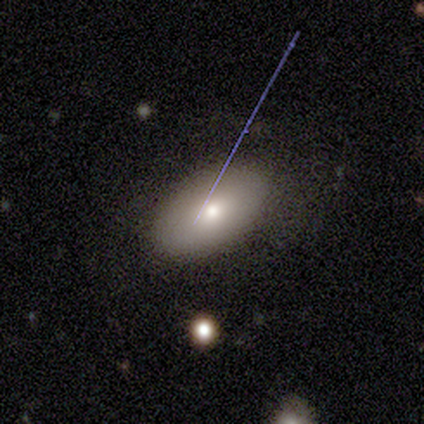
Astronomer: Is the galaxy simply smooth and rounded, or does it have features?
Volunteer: smooth — 57%.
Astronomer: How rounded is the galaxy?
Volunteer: in between — 100%.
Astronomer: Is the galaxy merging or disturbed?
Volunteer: none — 60%.